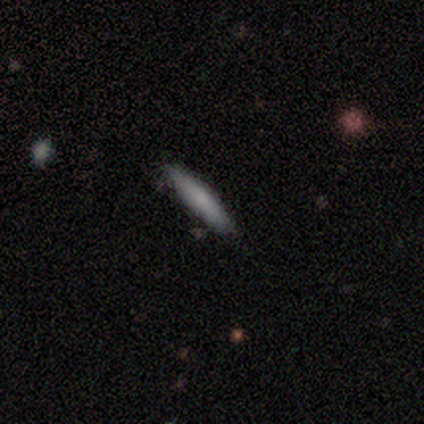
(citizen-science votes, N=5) Smooth or featured? smooth (100%)
How rounded? cigar-shaped (100%)
Merging? none (80%)